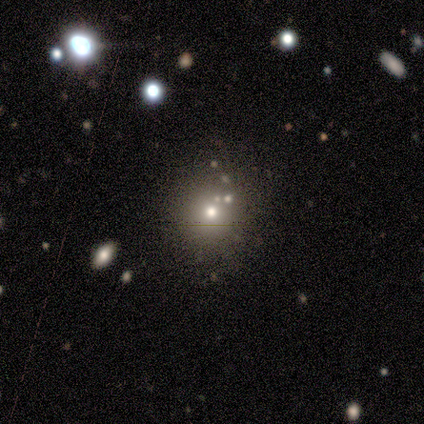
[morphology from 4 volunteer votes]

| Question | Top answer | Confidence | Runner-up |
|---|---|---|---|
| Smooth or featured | smooth | 75% | star or artifact (25%) |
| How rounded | round | 100% | — |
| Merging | none | 100% | — |